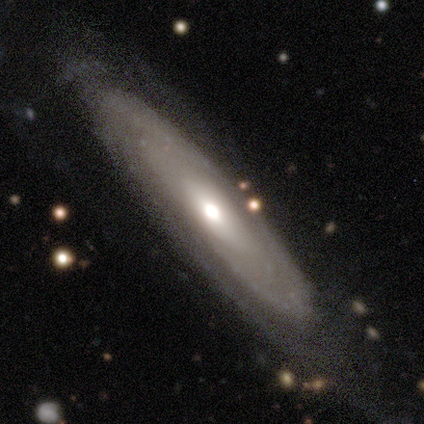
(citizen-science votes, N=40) Smooth or featured: featured or disk — 95% (smooth — 5%)
Edge-on disk: no — 68% (yes — 32%)
Bar: no — 81% (weak — 19%)
Spiral arms: yes — 85% (no — 15%)
Spiral winding: tight — 73% (medium — 18%)
Spiral arm count: can't tell — 86% (1 — 5%)
Bulge size: moderate — 58% (large — 23%)
Merging: none — 80% (minor disturbance — 18%)